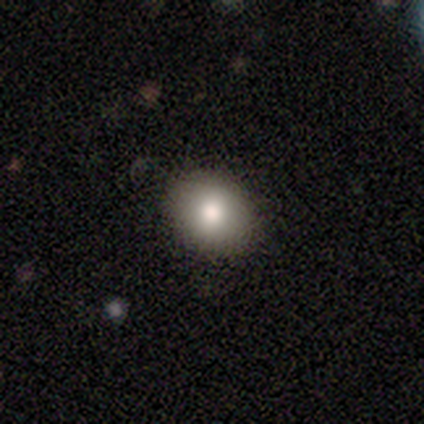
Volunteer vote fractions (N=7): A smooth galaxy with no disk features (100%) that is round (57%). Merging: none (100%).